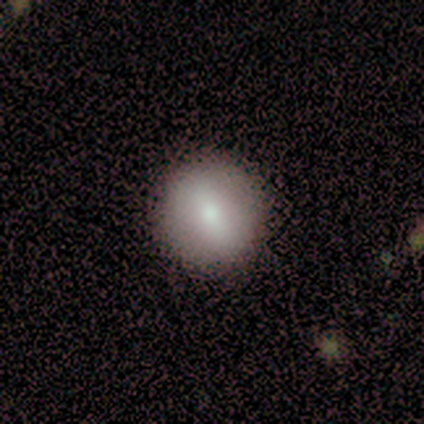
A smooth galaxy with no disk features (67%) that is round (100%). Merging: none (100%).